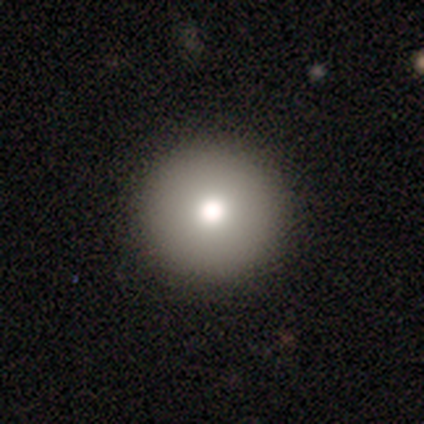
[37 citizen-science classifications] Smooth or featured?
  - smooth: 78% *
  - star or artifact: 14%
  - featured or disk: 8%
How rounded?
  - round: 100% *
  - in between: 0%
  - cigar-shaped: 0%
Merging?
  - none: 66% *
  - minor disturbance: 0%
  - major disturbance: 0%
  - merger: 0%